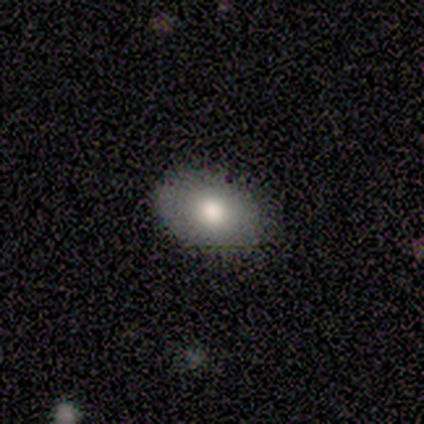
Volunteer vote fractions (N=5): Smooth or featured: smooth — 60% (featured or disk — 20%)
How rounded: in between — 100%
Merging: none — 75% (minor disturbance — 25%)